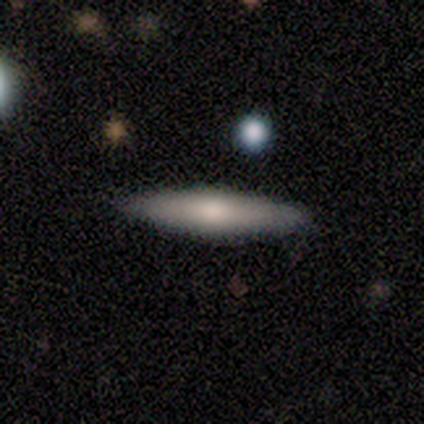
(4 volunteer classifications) Smooth or featured? 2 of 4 (50%, tied with featured or disk) said smooth. How rounded? 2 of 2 (100%) said cigar-shaped. Merging? 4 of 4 (100%) said none.